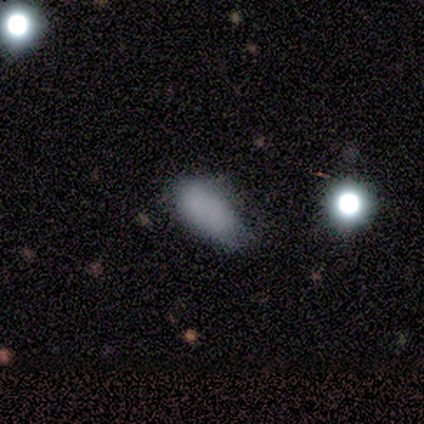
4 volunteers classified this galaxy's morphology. smooth_or_featured: smooth (p=0.75) [alt: featured or disk p=0.25]
how_rounded: in between (p=1.00)
merging: minor disturbance (p=0.75) [alt: none p=0.25]